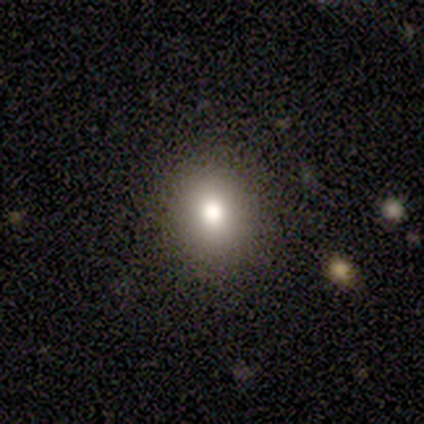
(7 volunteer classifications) Smooth or featured: smooth — 86% (featured or disk — 14%)
How rounded: round — 83% (in between — 17%)
Merging: none — 86% (minor disturbance — 14%)